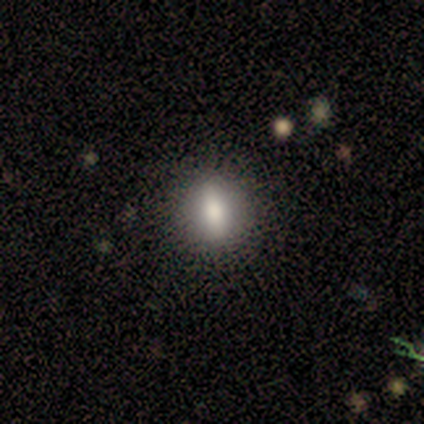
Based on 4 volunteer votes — Smooth or featured: smooth — 75% (featured or disk — 25%)
How rounded: round — 67% (in between — 33%)
Merging: none — 75% (minor disturbance — 25%)